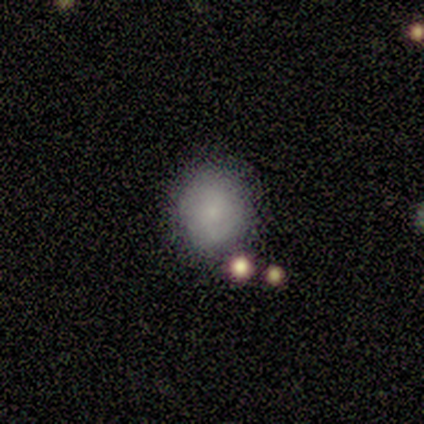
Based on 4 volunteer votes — smooth-or-featured: smooth: 75% | featured or disk: 25% | star or artifact: 0%
  how-rounded: round: 100% | in between: 0% | cigar-shaped: 0%
  merging: none: 100% | minor disturbance: 0% | major disturbance: 0% | merger: 0%